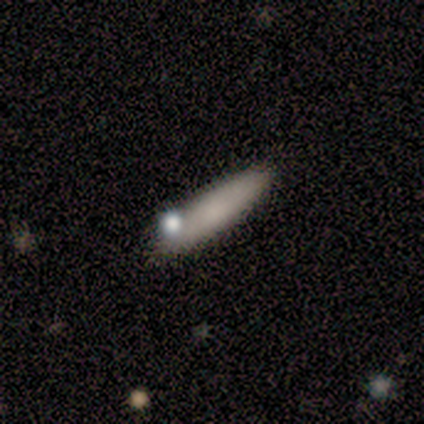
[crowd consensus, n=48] Q: Smooth or featured?
A: smooth (83%); runner-up: featured or disk (15%)
Q: How rounded?
A: cigar-shaped (72%); runner-up: in between (28%)
Q: Merging?
A: none (79%); runner-up: minor disturbance (19%)